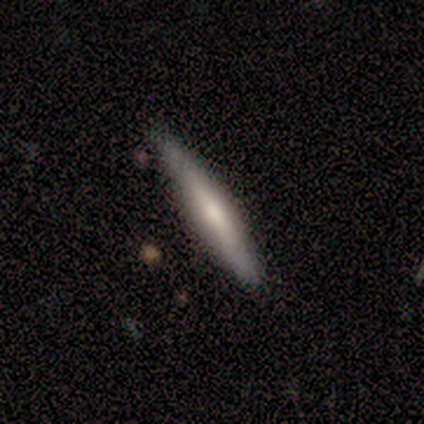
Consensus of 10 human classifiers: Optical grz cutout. It shows a smooth galaxy with no disk features (50%, tied with featured or disk) that is cigar-shaped (100%). Merging: none (80%).